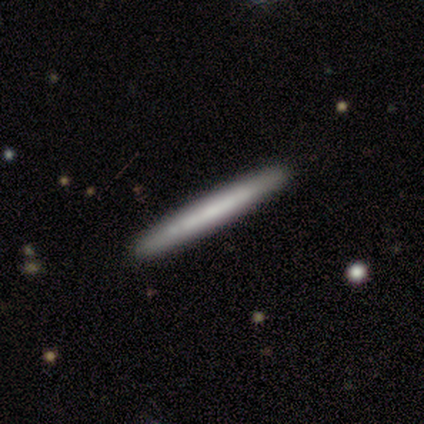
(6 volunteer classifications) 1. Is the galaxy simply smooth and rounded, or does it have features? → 100% smooth, 0% featured or disk, 0% star or artifact.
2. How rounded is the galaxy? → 100% cigar-shaped, 0% round, 0% in between.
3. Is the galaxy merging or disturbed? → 83% none, 17% major disturbance, 0% minor disturbance, 0% merger.